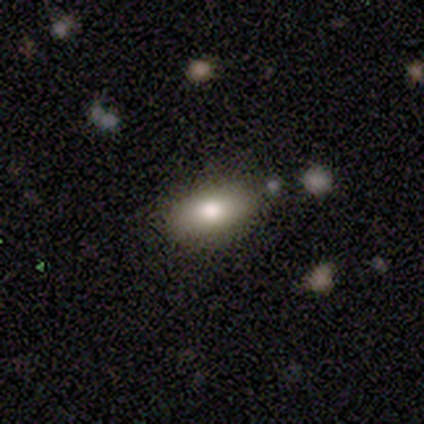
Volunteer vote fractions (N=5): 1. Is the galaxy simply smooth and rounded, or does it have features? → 60% featured or disk, 40% smooth, 0% star or artifact.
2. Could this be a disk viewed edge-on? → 67% yes, 33% no.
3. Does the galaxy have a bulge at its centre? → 100% rounded, 0% boxy, 0% none.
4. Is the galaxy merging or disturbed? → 60% none, 20% major disturbance, 20% merger, 0% minor disturbance.